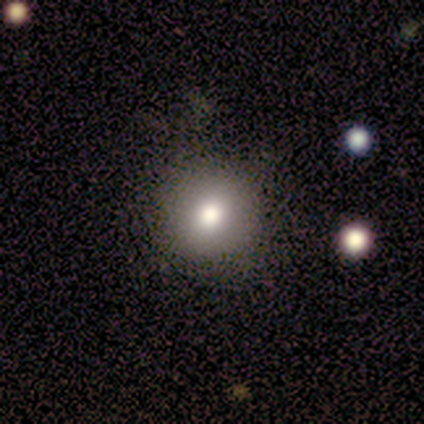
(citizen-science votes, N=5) Smooth or featured?
  - smooth: 80% *
  - featured or disk: 20%
  - star or artifact: 0%
How rounded?
  - round: 100% *
  - in between: 0%
  - cigar-shaped: 0%
Merging?
  - none: 100% *
  - minor disturbance: 0%
  - major disturbance: 0%
  - merger: 0%